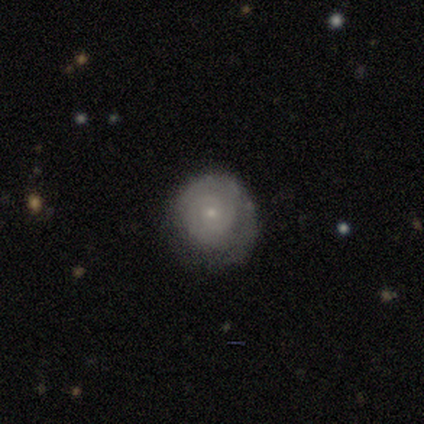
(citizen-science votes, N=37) Smooth or featured? featured or disk (70%)
Edge-on disk? no (100%)
Bar? no (92%)
Spiral arms? yes (88%)
Spiral winding? tight (91%)
Spiral arm count? 2 (48%)
Bulge size? small (88%)
Merging? none (67%)